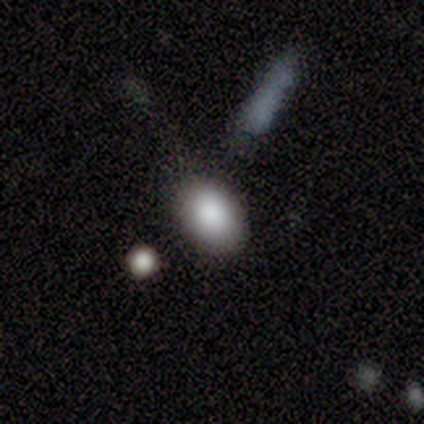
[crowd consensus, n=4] smooth-or-featured: smooth: 100% | featured or disk: 0% | star or artifact: 0%
  how-rounded: in between: 100% | round: 0% | cigar-shaped: 0%
  merging: none: 75% | merger: 25% | minor disturbance: 0% | major disturbance: 0%